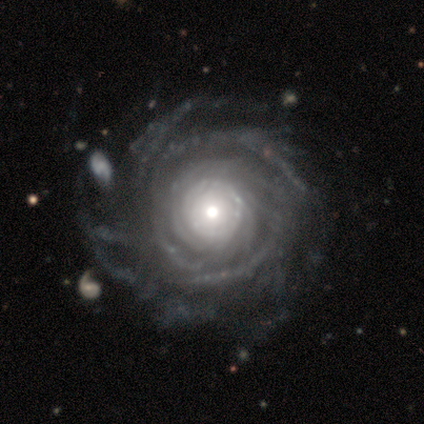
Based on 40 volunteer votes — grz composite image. It shows a featured or disk galaxy (100%) with no bar (90%), more than 4 (53%) tight (74%) spiral arms (97%) and a moderate central bulge (51%). Merging: none (25%).